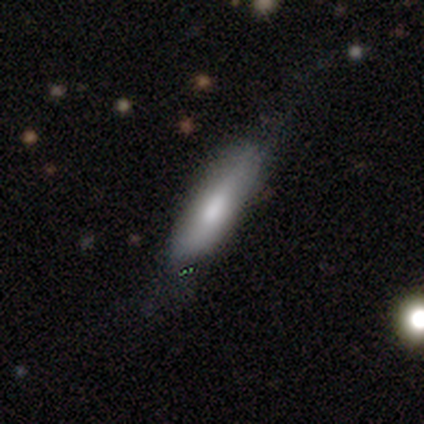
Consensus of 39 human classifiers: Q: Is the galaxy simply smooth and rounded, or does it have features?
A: smooth — 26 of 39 (67%).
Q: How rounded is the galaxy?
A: cigar-shaped — 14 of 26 (54%).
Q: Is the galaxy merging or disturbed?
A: none — 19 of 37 (51%).